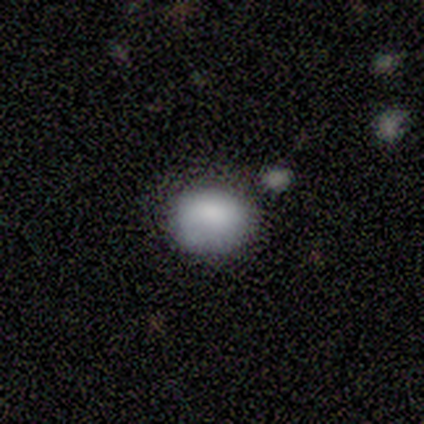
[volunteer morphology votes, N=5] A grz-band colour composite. It shows a smooth galaxy with no disk features (100%) that is round (80%). Merging: none (60%).